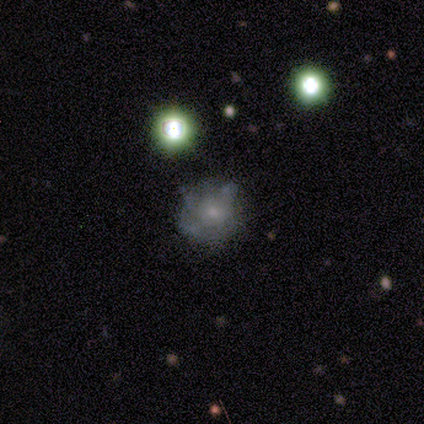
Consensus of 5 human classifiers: This is marginally a featured or disk galaxy (40%, tied with star or artifact). It is clearly not viewed edge-on (100%). Bar: clearly no (100%). Spiral arm pattern: possibly yes (50%, tied with no). Spiral arm count: clearly can't tell (100%). Spiral winding: clearly tight (100%). Central bulge: possibly moderate (50%, tied with small). Merging: likely none (67%).